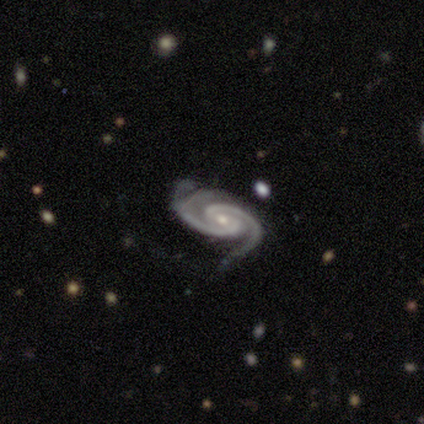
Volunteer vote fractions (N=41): smooth_or_featured: featured or disk (p=0.93) [alt: smooth p=0.05]
disk_edge_on: no (p=0.89) [alt: yes p=0.11]
bar: no (p=0.38) [alt: weak p=0.35]
has_spiral_arms: yes (p=1.00)
spiral_winding: tight (p=0.62) [alt: medium p=0.26]
spiral_arm_count: 2 (p=0.88) [alt: 3 p=0.09]
bulge_size: moderate (p=0.65) [alt: small p=0.32]
merging: none (p=0.47) [alt: minor disturbance p=0.33]